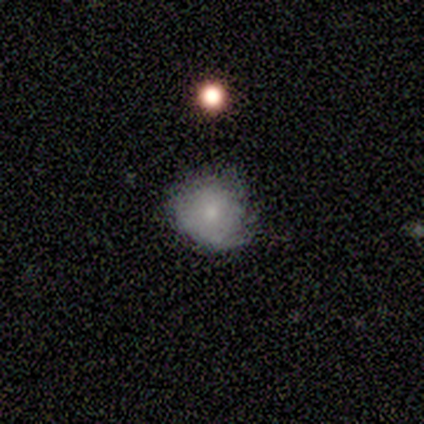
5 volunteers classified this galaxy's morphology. This is clearly a smooth galaxy (100%). How rounded: likely round (60%). Merging: clearly minor disturbance (80%).